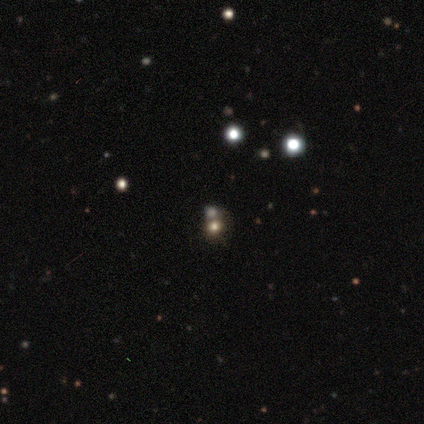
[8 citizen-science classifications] A star or artifact, not a galaxy (62%).

Vote fractions:
- Smooth or featured? star or artifact: 62% / smooth: 38% / featured or disk: 0%